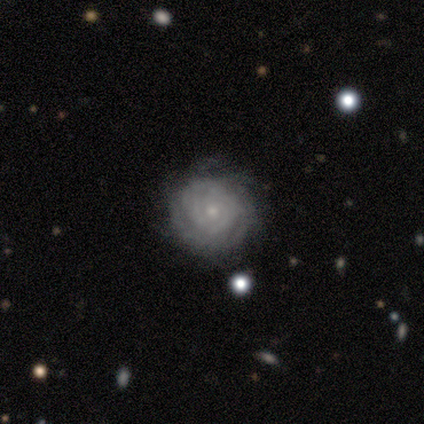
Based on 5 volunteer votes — This appears to be a featured or disk galaxy (80%) with a weak bar (50%, tied with no), 1 (25%, tied with 3, 4 and can't tell) tight (100%) spiral arms (100%) and a small central bulge (75%). Merging: none (100%).